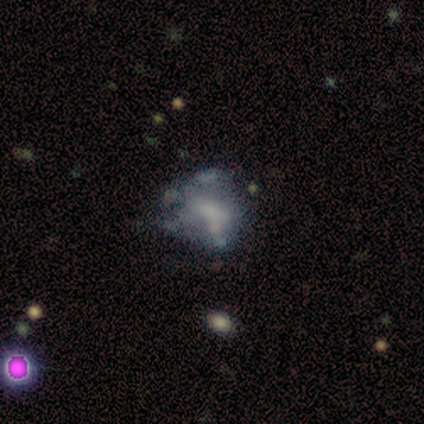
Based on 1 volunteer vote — Overall: featured or disk (100%). Edge-on disk: no (100%). Bar: weak (100%). Spiral arms: no (100%). Bulge size: moderate (100%). Merging: merger (100%).